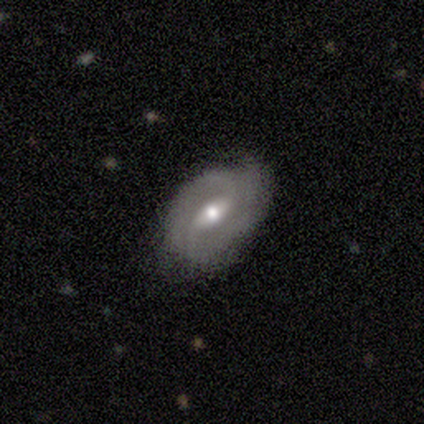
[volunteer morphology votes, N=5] Overall: featured or disk (60%; smooth 40%). Edge-on disk: no (100%). Bar: weak (100%). Spiral arms: yes (100%). Spiral arm count: 2 (33%, tied with 3 and can't tell). Spiral winding: tight (67%; medium 33%). Bulge size: moderate (33%, tied with small and none). Merging: major disturbance (60%; none 20%).